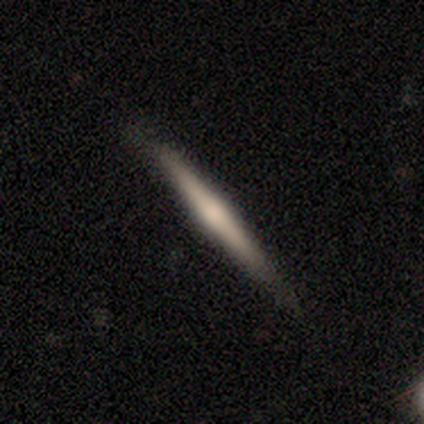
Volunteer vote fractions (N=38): Smooth or featured: featured or disk — 58% (smooth — 34%)
Edge-on disk: yes — 100%
Edge-on bulge: rounded — 77% (none — 23%)
Merging: none — 86% (minor disturbance — 14%)